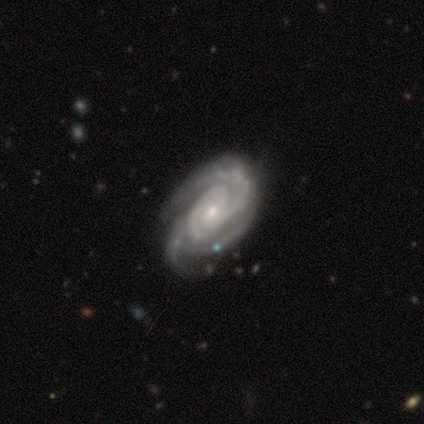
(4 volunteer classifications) This appears to be a featured or disk galaxy (100%) with no bar (100%), 3 (75%) tight (50%, tied with medium) spiral arms (100%) and a moderate central bulge (50%, tied with small). Merging: minor disturbance (50%).